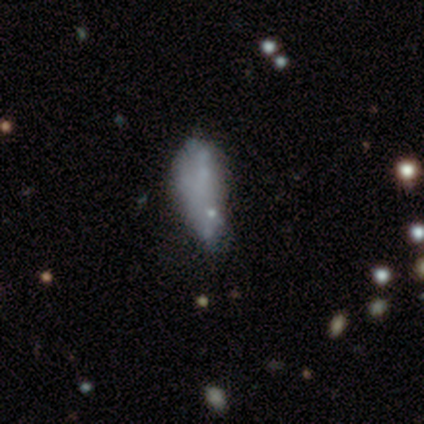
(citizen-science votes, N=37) smooth 51%, featured or disk 35%, star or artifact 14%. Down the decision tree: how rounded — in between (74%); merging — minor disturbance (41%).